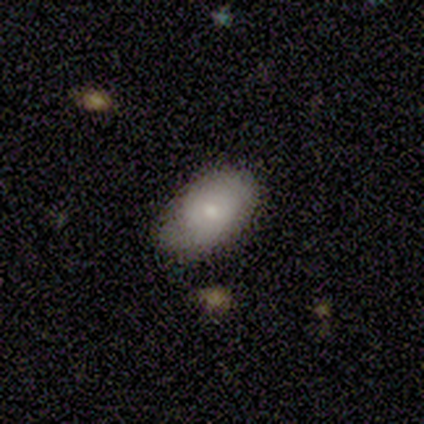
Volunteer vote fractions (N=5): This is clearly a smooth galaxy (80%). How rounded: clearly in between (100%). Merging: likely none (60%).